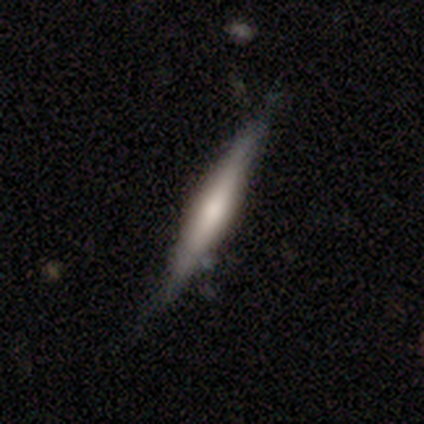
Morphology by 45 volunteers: Volunteers were most divided on "smooth or featured": smooth: 56%, featured or disk: 44%, star or artifact: 0%. More confident: how rounded — cigar-shaped (96%); merging — none (62%).